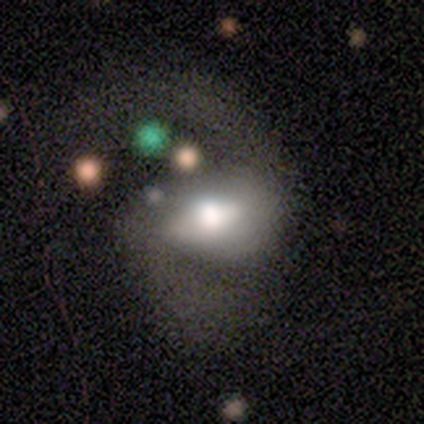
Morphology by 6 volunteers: Q: Smooth or featured?
A: featured or disk (67%); runner-up: smooth (33%)
Q: Edge-on disk?
A: no (75%); runner-up: yes (25%)
Q: Bar?
A: strong (100%)
Q: Spiral arms?
A: yes (100%)
Q: Spiral winding?
A: medium (67%); runner-up: loose (33%)
Q: Spiral arm count?
A: 2 (100%)
Q: Bulge size?
A: moderate (100%)
Q: Merging?
A: major disturbance (50%); runner-up: none (33%)